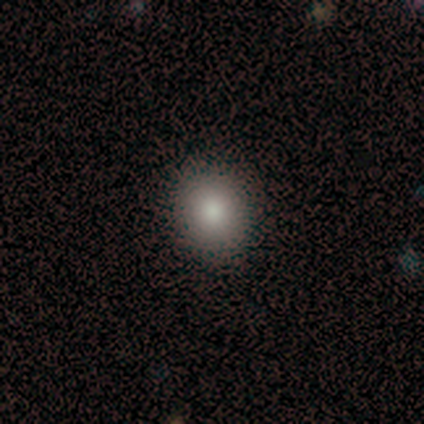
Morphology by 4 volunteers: A smooth galaxy with no disk features (50%, tied with featured or disk) that is round (100%).

Vote fractions:
- Smooth or featured? smooth: 50% (tied) / featured or disk: 50% (tied) / star or artifact: 0%
- How rounded? round: 100% / in between: 0% / cigar-shaped: 0%
- Merging? none: 75% / minor disturbance: 25% / major disturbance: 0% / merger: 0%